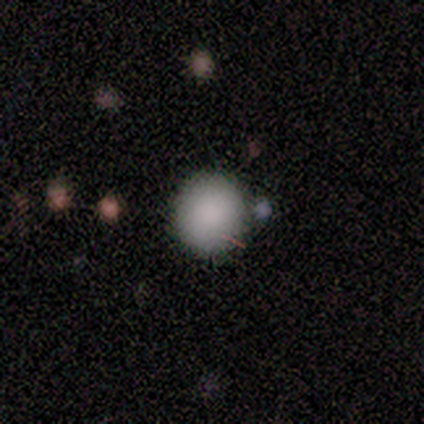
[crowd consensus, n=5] Overall: smooth (80%). How rounded: round (100%). Merging: none (100%).